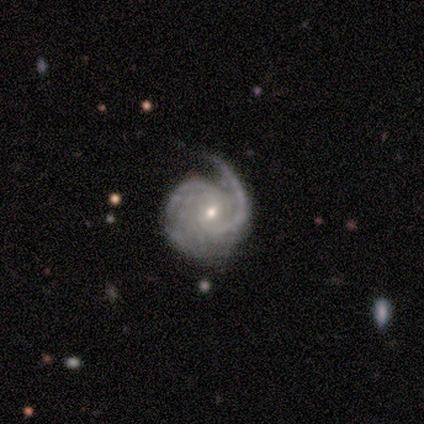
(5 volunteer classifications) Overall: featured or disk (100%). Edge-on disk: no (100%). Bar: no (60%; strong 20%). Spiral arms: yes (100%). Spiral arm count: 2 (80%). Spiral winding: tight (60%; medium 40%). Bulge size: small (80%). Merging: none (80%).